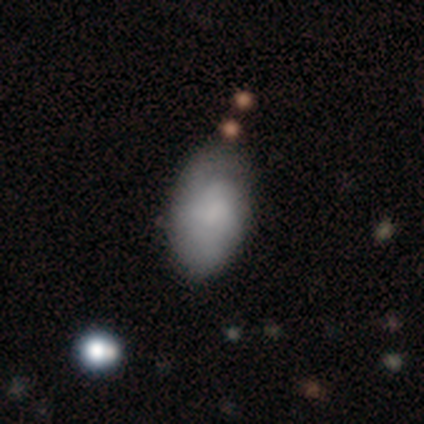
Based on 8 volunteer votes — Overall: featured or disk (50%; smooth 38%). Edge-on disk: no (100%). Bar: no (75%). Spiral arms: yes (75%). Spiral arm count: 2 (33%, tied with 3 and can't tell). Spiral winding: tight (67%; medium 33%). Bulge size: none (50%; moderate 25%). Merging: minor disturbance (57%; none 43%).